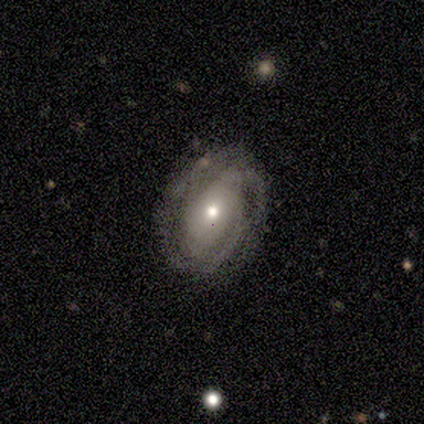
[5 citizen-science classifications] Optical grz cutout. It shows a featured or disk galaxy (100%) with a weak bar (60%), 2 (50%) medium (75%) spiral arms (80%) and a small central bulge (60%). Merging: none (100%).